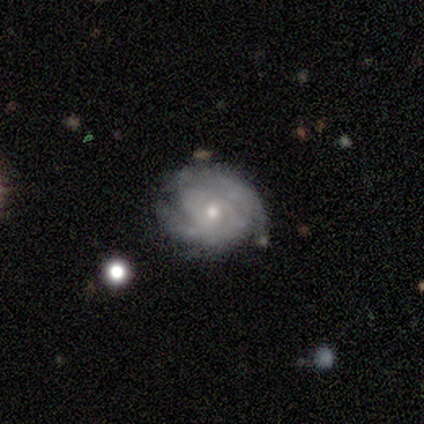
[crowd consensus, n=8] Smooth or featured? 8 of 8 (100%) said featured or disk. Edge-on disk? 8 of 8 (100%) said no. Bar? 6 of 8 (75%) said no. Spiral arms? 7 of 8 (88%) said yes. Spiral winding? 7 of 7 (100%) said tight. Spiral arm count? 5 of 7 (71%) said 2. Bulge size? 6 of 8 (75%) said small. Merging? 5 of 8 (62%) said none.